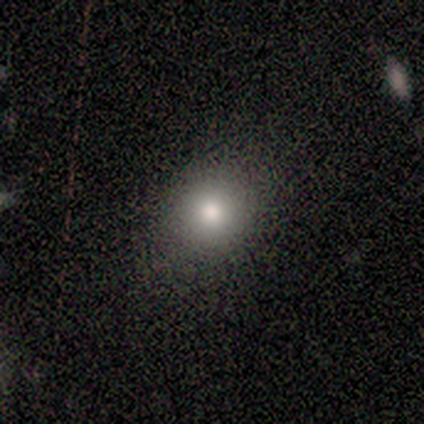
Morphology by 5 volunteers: Overall: smooth (60%; star or artifact 40%). How rounded: round (100%). Merging: none (67%; minor disturbance 33%).